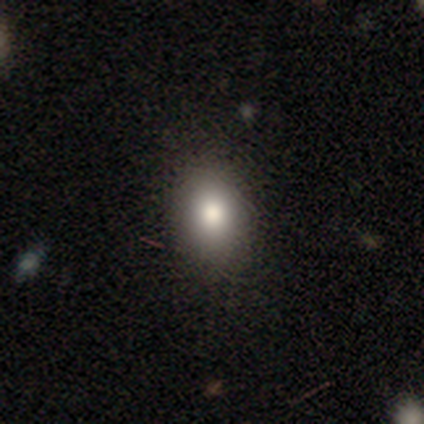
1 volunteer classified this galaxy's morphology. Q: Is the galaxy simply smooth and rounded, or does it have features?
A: star or artifact — 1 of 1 (100%).